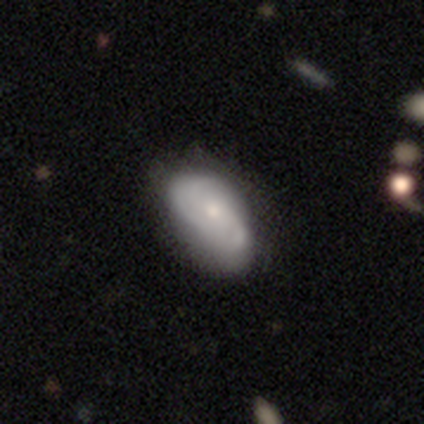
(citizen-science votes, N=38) A featured or disk galaxy (55%) with no bar (90%), 2 (65%) medium (47%) spiral arms (81%) and a moderate central bulge (43%, tied with small).

Vote fractions:
- Smooth or featured? featured or disk: 55% / smooth: 42% / star or artifact: 3%
- Edge-on disk? no: 100% / yes: 0%
- Bar? no: 90% / weak: 10% / strong: 0%
- Spiral arms? yes: 81% / no: 19%
- Spiral winding? medium: 47% / loose: 41% / tight: 12%
- Spiral arm count? 2: 65% / 3: 24% / 1: 6% / can't tell: 6% / 4: 0% / more than 4: 0%
- Bulge size? moderate: 43% (tied) / small: 43% (tied) / none: 10% / dominant: 5% / large: 0%
- Merging? none: 57% / minor disturbance: 27% / major disturbance: 11% / merger: 5%